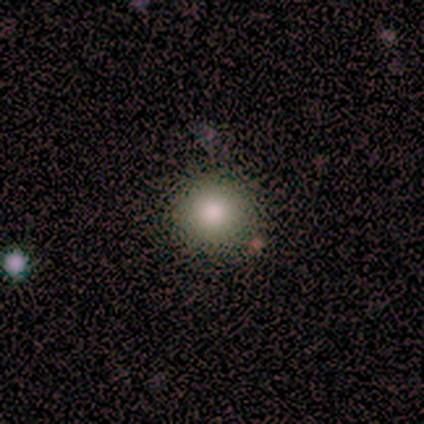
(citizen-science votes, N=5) smooth_or_featured: smooth (p=0.80) [alt: star or artifact p=0.20]
how_rounded: round (p=1.00)
merging: none (p=0.75) [alt: minor disturbance p=0.25]